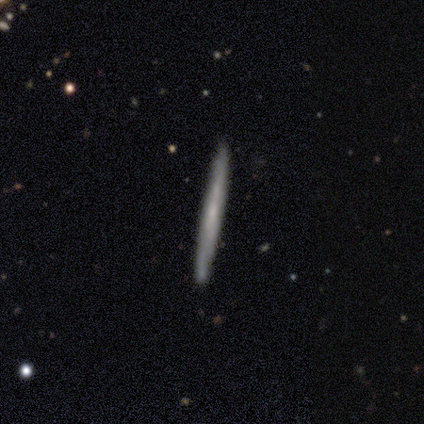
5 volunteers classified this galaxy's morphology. Smooth or featured: smooth — 60% (featured or disk — 40%)
How rounded: cigar-shaped — 100%
Merging: none — 80% (minor disturbance — 20%)